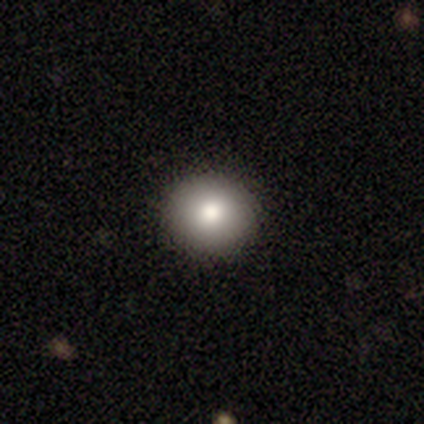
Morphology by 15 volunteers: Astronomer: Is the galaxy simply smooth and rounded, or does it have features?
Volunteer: smooth — 73%.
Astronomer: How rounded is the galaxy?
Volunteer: round — 100%.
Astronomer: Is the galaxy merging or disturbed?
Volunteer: none — 85%.